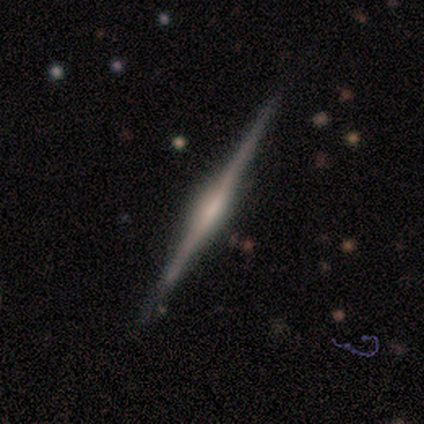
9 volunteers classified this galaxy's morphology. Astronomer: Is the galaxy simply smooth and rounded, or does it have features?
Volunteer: featured or disk — 89%.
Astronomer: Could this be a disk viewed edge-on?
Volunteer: yes — 100%.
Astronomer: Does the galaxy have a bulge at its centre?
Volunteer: rounded — 75%.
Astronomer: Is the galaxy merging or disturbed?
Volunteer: none — 100%.